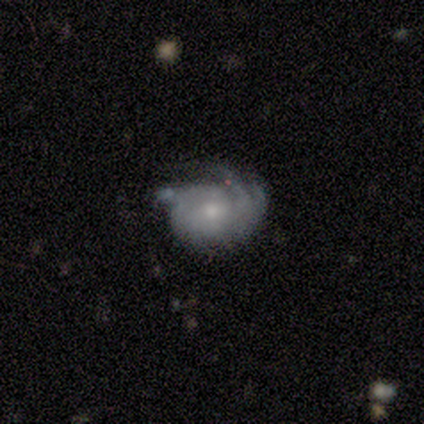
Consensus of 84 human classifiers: Smooth or featured? 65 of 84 (77%) said featured or disk. Edge-on disk? 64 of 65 (98%) said no. Bar? 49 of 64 (77%) said no. Spiral arms? 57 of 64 (89%) said yes. Spiral winding? 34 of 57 (60%) said tight. Spiral arm count? 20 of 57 (35%) said 2. Bulge size? 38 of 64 (59%) said moderate. Merging? 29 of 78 (37%) said none.